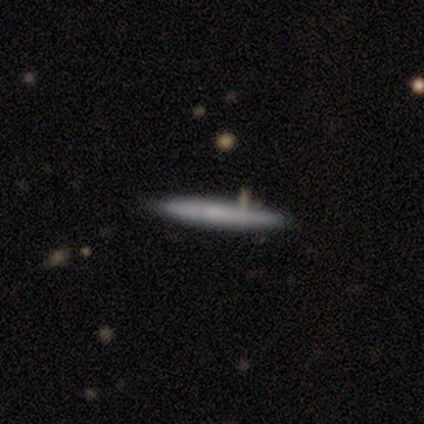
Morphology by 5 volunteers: Q: Smooth or featured?
A: smooth (80%); runner-up: featured or disk (20%)
Q: How rounded?
A: cigar-shaped (100%)
Q: Merging?
A: none (100%)